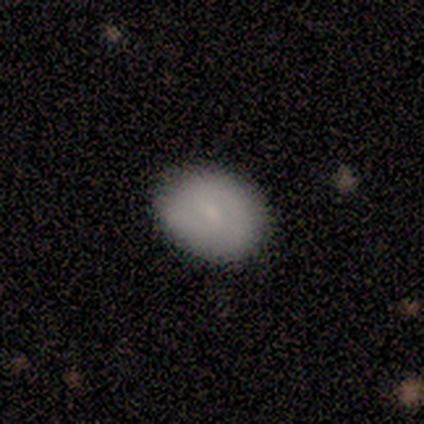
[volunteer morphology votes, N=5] Smooth or featured: smooth — 80% (featured or disk — 20%)
How rounded: round — 75% (in between — 25%)
Merging: none — 100%